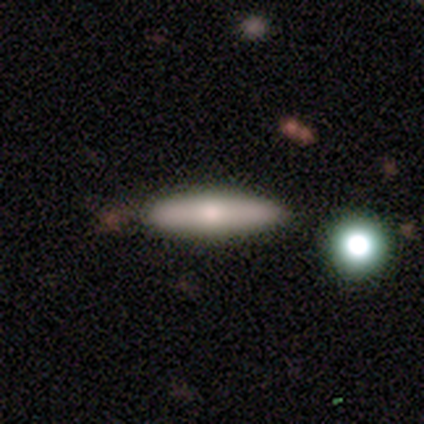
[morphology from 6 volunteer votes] A smooth galaxy with no disk features (83%) that is cigar-shaped (60%).

Vote fractions:
- Smooth or featured? smooth: 83% / featured or disk: 17% / star or artifact: 0%
- How rounded? cigar-shaped: 60% / in between: 40% / round: 0%
- Merging? none: 100% / minor disturbance: 0% / major disturbance: 0% / merger: 0%